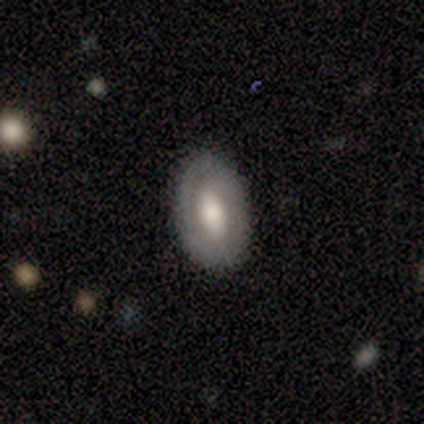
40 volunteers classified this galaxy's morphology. Volunteers were most divided on "bar": weak: 43%, no: 38%, strong: 19%. More confident: edge-on disk — no (91%); merging — none (88%); spiral arms — no (67%); bulge size — large (62%); smooth or featured — featured or disk (57%).